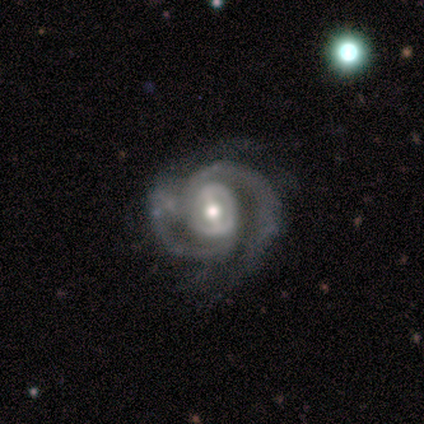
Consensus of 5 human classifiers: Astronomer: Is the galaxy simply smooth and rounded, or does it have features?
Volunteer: featured or disk — 100%.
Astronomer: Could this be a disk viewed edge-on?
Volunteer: no — 100%.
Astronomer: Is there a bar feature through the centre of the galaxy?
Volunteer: weak — 60% (runner-up: no, 40%).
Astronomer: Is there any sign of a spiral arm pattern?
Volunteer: yes — 100%.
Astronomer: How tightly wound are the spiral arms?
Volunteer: tight — 80%.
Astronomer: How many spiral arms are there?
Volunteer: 2 — 80%.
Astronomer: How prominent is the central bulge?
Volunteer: large — 40%, tied with moderate at 40%.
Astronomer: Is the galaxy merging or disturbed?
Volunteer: none — 60%.